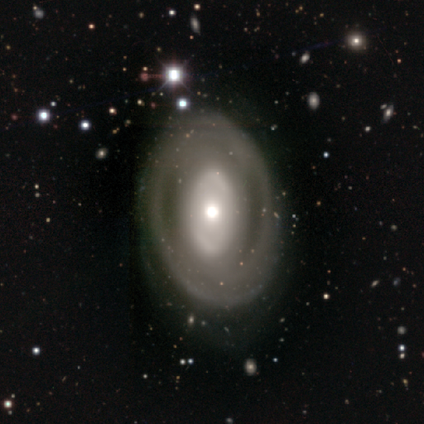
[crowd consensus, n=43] A featured or disk galaxy (72%) with no bar (87%), no spiral arms (63%) and a moderate central bulge (60%). Merging: none (69%).